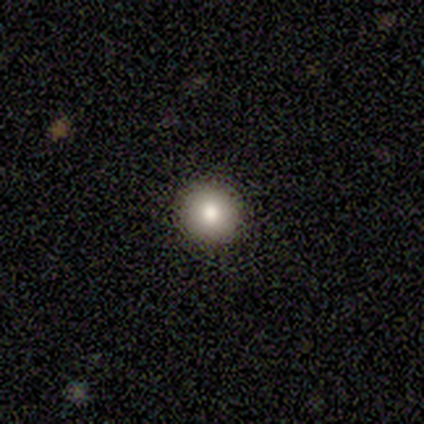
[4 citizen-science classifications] This appears to be a smooth galaxy with no disk features (100%) that is round (100%). Merging: none (75%).